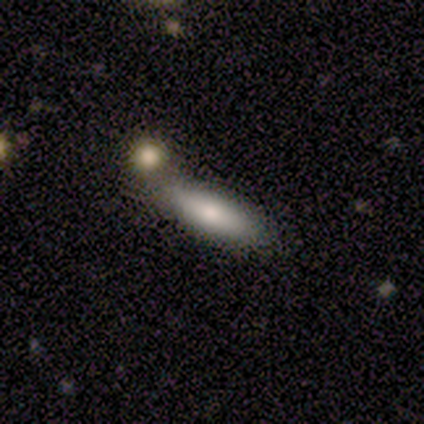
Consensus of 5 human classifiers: Volunteers were most divided on "merging": none: 60%, merger: 40%, minor disturbance: 0%, major disturbance: 0%. More confident: smooth or featured — smooth (100%); how rounded — cigar-shaped (80%).